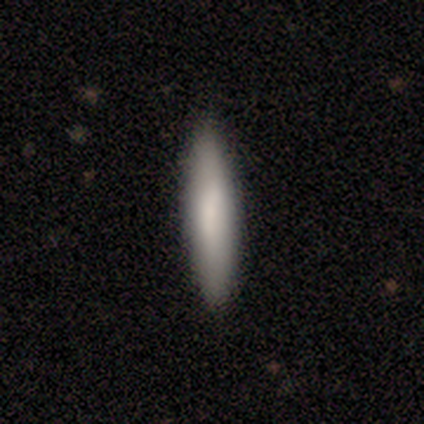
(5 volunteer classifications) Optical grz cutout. It shows a smooth galaxy with no disk features (100%) that is cigar-shaped (60%). Merging: none (80%).